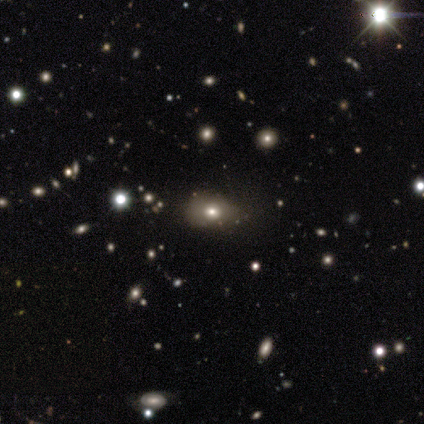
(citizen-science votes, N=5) smooth 80%, featured or disk 20%, star or artifact 0%. Down the decision tree: how rounded — in between (75%); merging — none (80%).